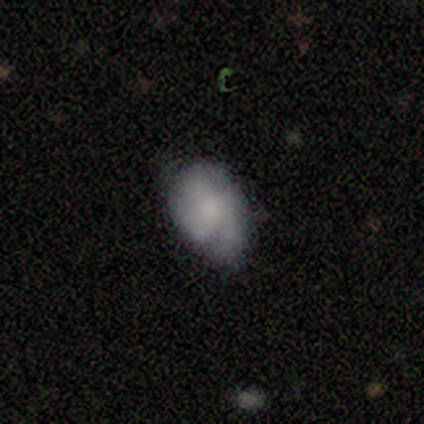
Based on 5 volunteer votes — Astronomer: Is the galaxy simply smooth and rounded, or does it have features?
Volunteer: featured or disk — 60% (runner-up: smooth, 40%).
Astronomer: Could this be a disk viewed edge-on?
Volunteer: no — 100%.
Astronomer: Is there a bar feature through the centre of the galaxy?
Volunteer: no — 100%.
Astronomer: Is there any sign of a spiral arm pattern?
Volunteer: no — 67%.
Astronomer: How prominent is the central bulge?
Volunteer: small — 67%.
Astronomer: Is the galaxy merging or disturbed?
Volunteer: minor disturbance — 40%, tied with major disturbance at 40%.